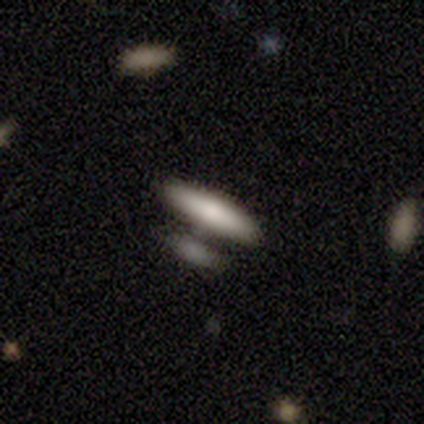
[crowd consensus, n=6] Smooth or featured?
  - smooth: 100% *
  - featured or disk: 0%
  - star or artifact: 0%
How rounded?
  - cigar-shaped: 83% *
  - in between: 17%
  - round: 0%
Merging?
  - none: 33% * (tied)
  - merger: 33% * (tied)
  - minor disturbance: 17%
  - major disturbance: 17%